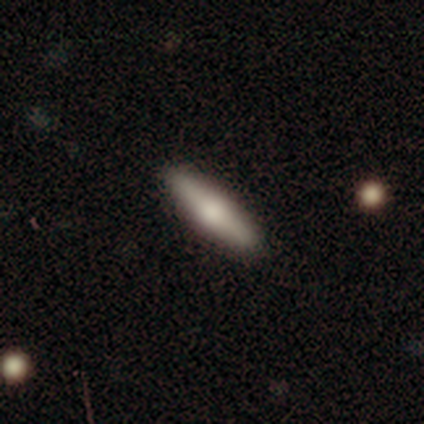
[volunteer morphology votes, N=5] A featured or disk galaxy (60%) viewed edge-on (67%) with a rounded central bulge (100%). Merging: none (80%).